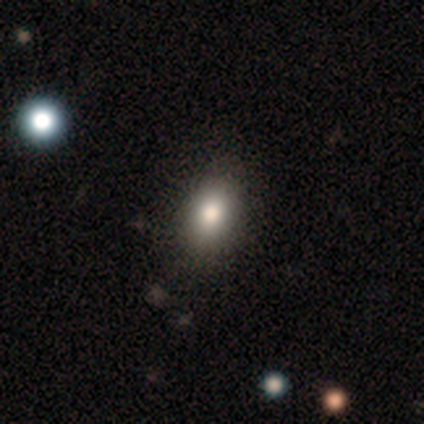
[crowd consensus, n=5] smooth_or_featured: smooth (p=0.80) [alt: star or artifact p=0.20]
how_rounded: round (p=0.50) [tied with: in between p=0.50]
merging: none (p=1.00)